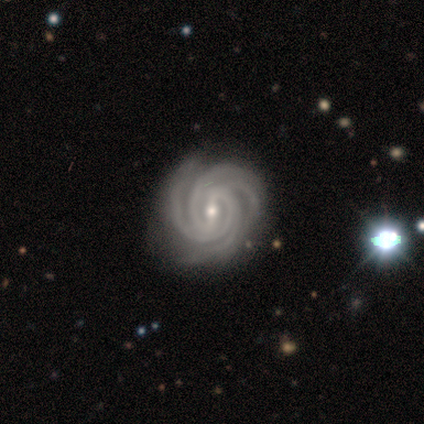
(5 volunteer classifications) Smooth or featured: featured or disk — 100%
Edge-on disk: no — 100%
Bar: strong — 60% (weak — 40%)
Spiral arms: yes — 100%
Spiral winding: tight — 60% (medium — 40%)
Spiral arm count: 4 — 80% (2 — 20%)
Bulge size: small — 60% (moderate — 40%)
Merging: none — 80% (major disturbance — 20%)